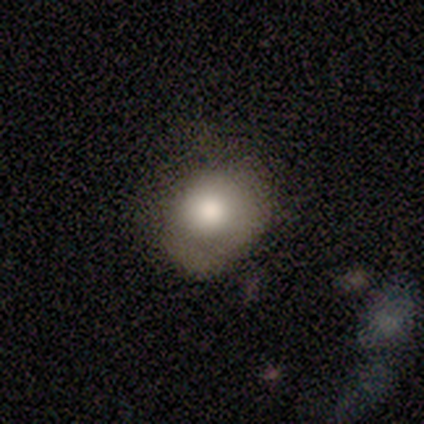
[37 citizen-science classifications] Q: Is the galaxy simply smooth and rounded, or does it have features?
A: smooth — 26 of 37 (70%).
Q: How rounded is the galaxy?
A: round — 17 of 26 (65%).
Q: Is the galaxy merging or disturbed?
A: none — 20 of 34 (59%).